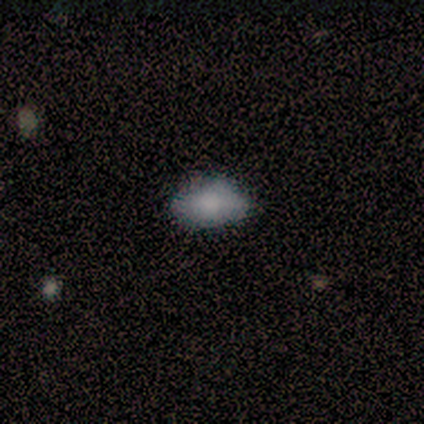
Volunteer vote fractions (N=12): This appears to be a smooth galaxy with no disk features (83%) that is in between round and cigar-shaped (100%). Merging: none (80%).